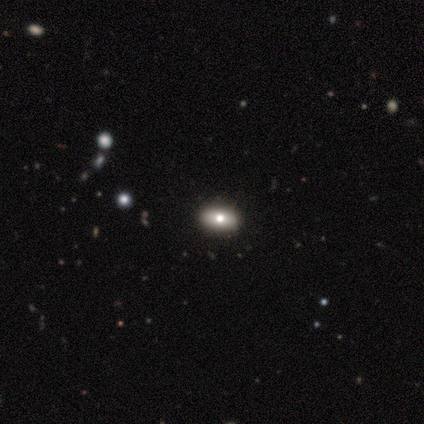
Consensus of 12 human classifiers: Smooth or featured? smooth (58%)
How rounded? in between (86%)
Merging? none (82%)